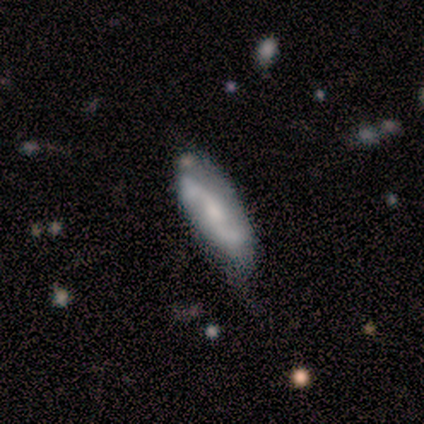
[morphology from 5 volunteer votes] Smooth or featured? 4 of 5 (80%) said featured or disk. Edge-on disk? 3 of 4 (75%) said no. Bar? 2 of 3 (67%) said no. Spiral arms? 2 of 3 (67%) said yes. Spiral winding? 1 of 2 (50%, tied with loose) said medium. Spiral arm count? 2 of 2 (100%) said 2. Bulge size? 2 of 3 (67%) said small. Merging? 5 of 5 (100%) said none.